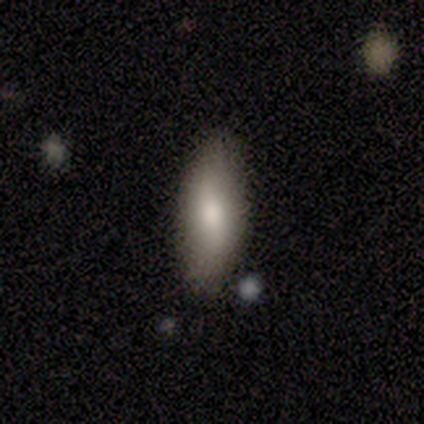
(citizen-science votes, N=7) Overall: smooth (57%; featured or disk 29%). How rounded: in between (50%, tied with cigar-shaped). Merging: none (100%).